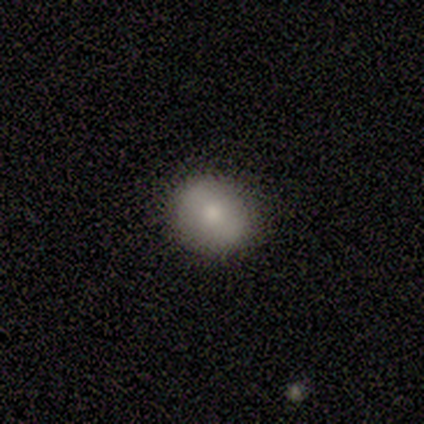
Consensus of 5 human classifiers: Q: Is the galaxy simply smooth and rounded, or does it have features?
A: smooth — 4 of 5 (80%).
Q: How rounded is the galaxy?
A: round — 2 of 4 (50%, tied with in between).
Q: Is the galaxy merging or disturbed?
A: none — 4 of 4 (100%).